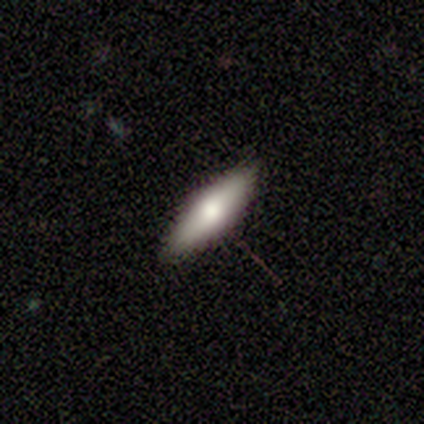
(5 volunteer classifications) Volunteers were most divided on "how rounded": cigar-shaped: 75%, in between: 25%, round: 0%. More confident: smooth or featured — smooth (80%); merging — none (80%).